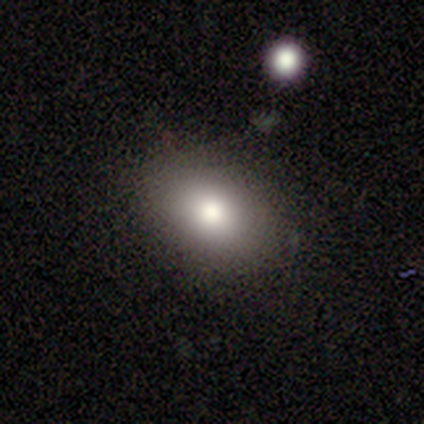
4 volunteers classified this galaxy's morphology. Volunteers were most divided on "how rounded": round: 75%, in between: 25%, cigar-shaped: 0%. More confident: smooth or featured — smooth (100%); merging — none (100%).